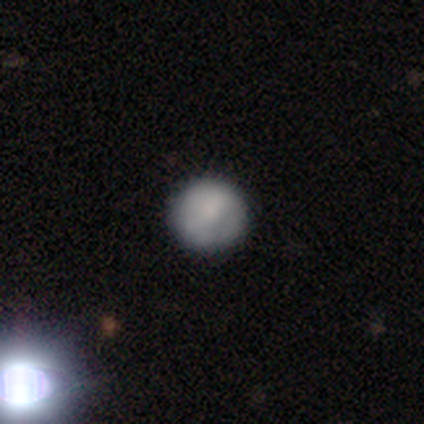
Smooth or featured? smooth (77%)
How rounded? round (97%)
Merging? none (86%)